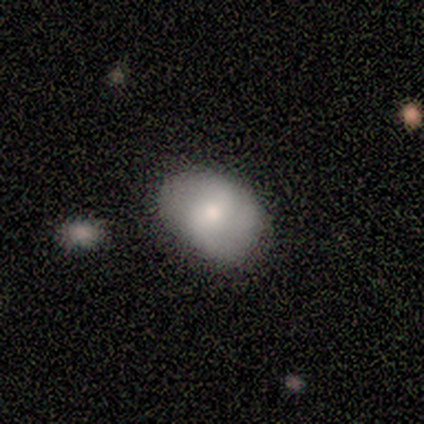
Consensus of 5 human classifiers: Smooth or featured: smooth — 80% (featured or disk — 20%)
How rounded: in between — 75% (round — 25%)
Merging: none — 60% (minor disturbance — 40%)